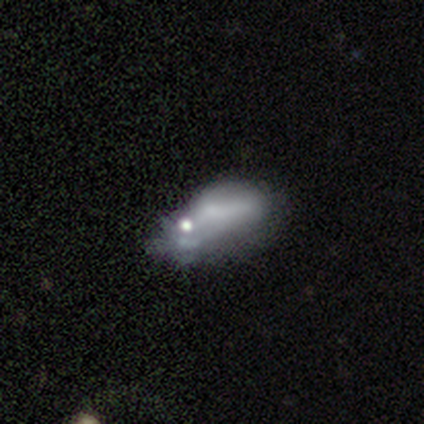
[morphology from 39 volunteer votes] Overall: smooth (49%; featured or disk 38%). How rounded: in between (79%). Merging: major disturbance (38%; minor disturbance 35%).